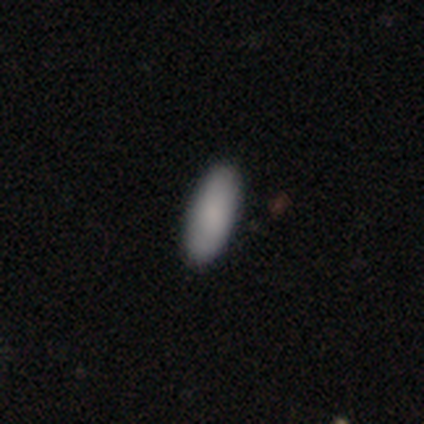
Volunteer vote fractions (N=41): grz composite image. It shows a smooth galaxy with no disk features (83%) that is in between round and cigar-shaped (82%). Merging: none (97%).